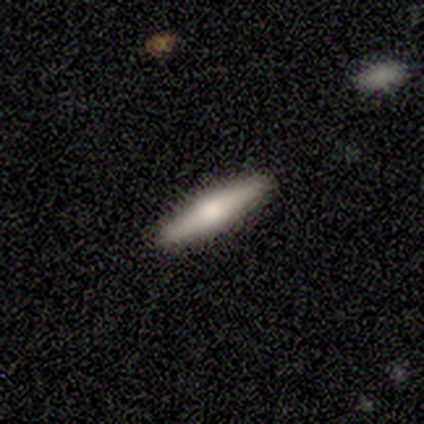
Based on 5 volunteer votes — A smooth galaxy with no disk features (60%) that is cigar-shaped (100%).

Vote fractions:
- Smooth or featured? smooth: 60% / featured or disk: 40% / star or artifact: 0%
- How rounded? cigar-shaped: 100% / round: 0% / in between: 0%
- Merging? none: 60% / minor disturbance: 20% / merger: 20% / major disturbance: 0%